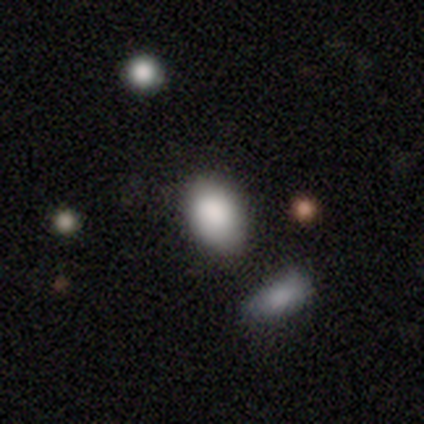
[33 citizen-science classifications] smooth_or_featured: smooth (p=0.82) [alt: featured or disk p=0.09]
how_rounded: in between (p=0.70) [alt: round p=0.22]
merging: merger (p=0.50)